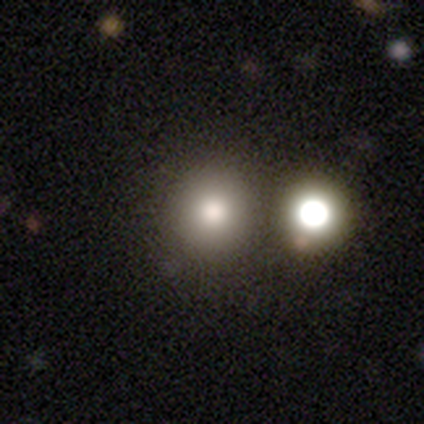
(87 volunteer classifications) Morphology: type=smooth (75%); roundness=round (92%); merging=none (86%).